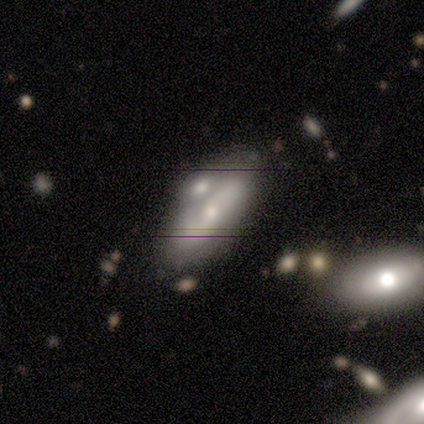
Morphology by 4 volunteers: smooth-or-featured: featured or disk: 75% | smooth: 25% | star or artifact: 0%
  disk-edge-on: no: 100% | yes: 0%
    bar: no: 67% | weak: 33% | strong: 0%
    has-spiral-arms: yes: 67% | no: 33%
      spiral-winding: tight: 50% (tied) | medium: 50% (tied) | loose: 0%
      spiral-arm-count: 2: 100% | 1: 0% | 3: 0% | 4: 0% | more than 4: 0% | can't tell: 0%
    bulge-size: small: 67% | moderate: 33% | dominant: 0% | large: 0% | none: 0%
  merging: merger: 50% | none: 25% | major disturbance: 25% | minor disturbance: 0%